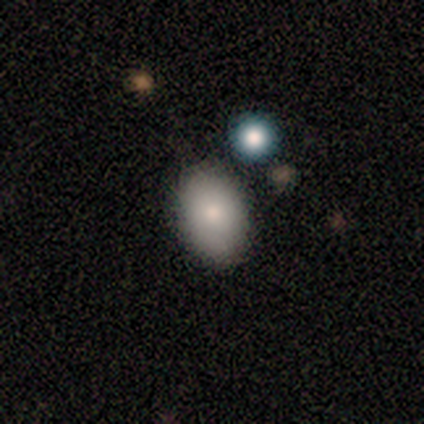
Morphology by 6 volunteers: Overall: smooth (83%). How rounded: in between (80%). Merging: none (67%).